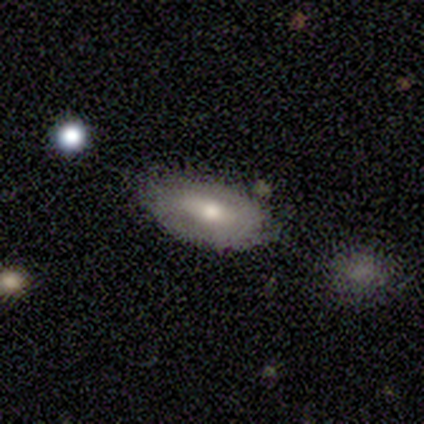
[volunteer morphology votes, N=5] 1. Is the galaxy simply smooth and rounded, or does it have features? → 60% smooth, 40% featured or disk, 0% star or artifact.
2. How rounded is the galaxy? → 67% in between, 33% cigar-shaped, 0% round.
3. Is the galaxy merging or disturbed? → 60% none, 40% minor disturbance, 0% major disturbance, 0% merger.